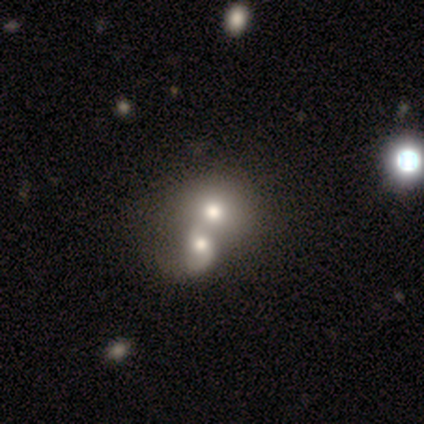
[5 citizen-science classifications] Smooth or featured: featured or disk — 60% (smooth — 40%)
Edge-on disk: no — 100%
Bar: no — 67% (weak — 33%)
Spiral arms: yes — 67% (no — 33%)
Spiral winding: tight — 50% (tied with loose — 50%)
Spiral arm count: 2 — 100%
Bulge size: moderate — 67% (large — 33%)
Merging: merger — 80% (none — 20%)